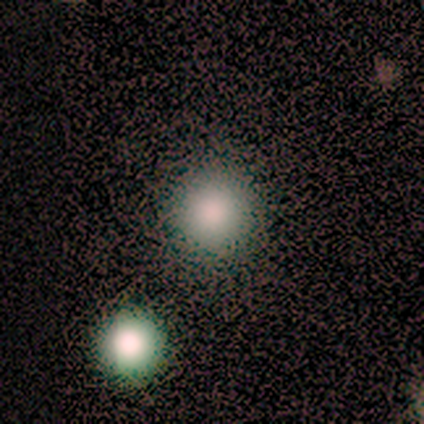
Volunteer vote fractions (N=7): Smooth or featured? smooth (86%)
How rounded? round (83%)
Merging? none (86%)